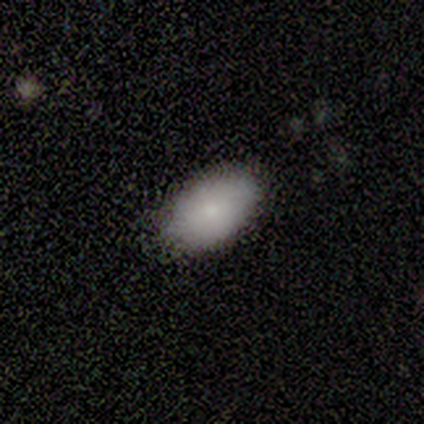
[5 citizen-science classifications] smooth_or_featured: smooth (p=0.80) [alt: star or artifact p=0.20]
how_rounded: in between (p=1.00)
merging: none (p=1.00)